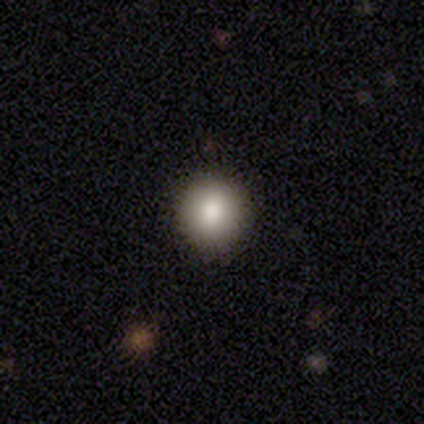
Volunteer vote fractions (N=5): smooth_or_featured: smooth (p=1.00)
how_rounded: round (p=0.80) [alt: in between p=0.20]
merging: none (p=1.00)